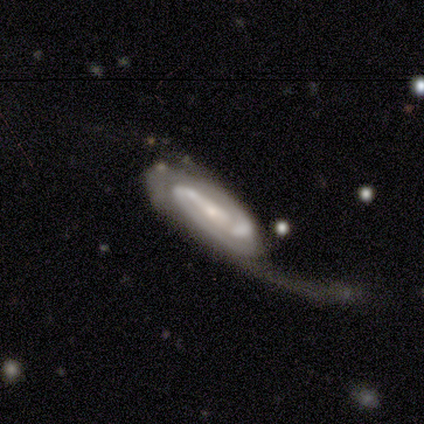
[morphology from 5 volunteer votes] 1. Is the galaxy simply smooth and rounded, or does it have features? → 100% featured or disk, 0% smooth, 0% star or artifact.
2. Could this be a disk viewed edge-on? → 80% no, 20% yes.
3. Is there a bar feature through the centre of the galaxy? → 75% strong, 25% weak, 0% no.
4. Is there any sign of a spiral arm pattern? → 100% yes, 0% no.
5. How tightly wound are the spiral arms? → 100% tight, 0% medium, 0% loose.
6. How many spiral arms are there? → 50% 2, 25% 3, 25% can't tell, 0% 1, 0% 4, 0% more than 4.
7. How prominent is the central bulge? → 50% small, 25% large, 25% none, 0% dominant, 0% moderate.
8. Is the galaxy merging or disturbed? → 80% major disturbance, 20% none, 0% minor disturbance, 0% merger.